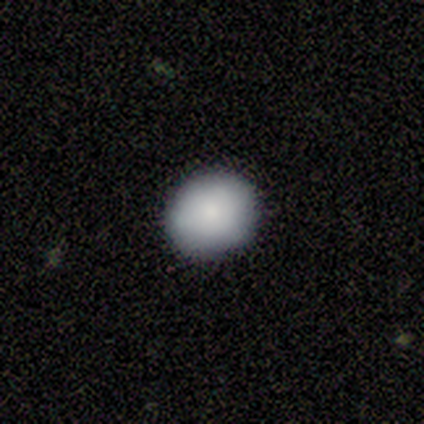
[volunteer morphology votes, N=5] Smooth or featured?
  - smooth: 100% *
  - featured or disk: 0%
  - star or artifact: 0%
How rounded?
  - round: 100% *
  - in between: 0%
  - cigar-shaped: 0%
Merging?
  - none: 100% *
  - minor disturbance: 0%
  - major disturbance: 0%
  - merger: 0%